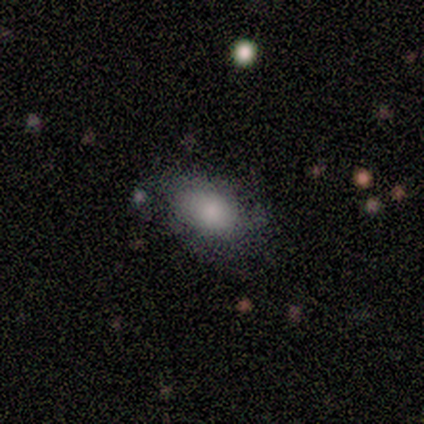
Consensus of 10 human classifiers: Q: Smooth or featured?
A: smooth (70%); runner-up: featured or disk (30%)
Q: How rounded?
A: in between (100%)
Q: Merging?
A: none (70%); runner-up: minor disturbance (20%)